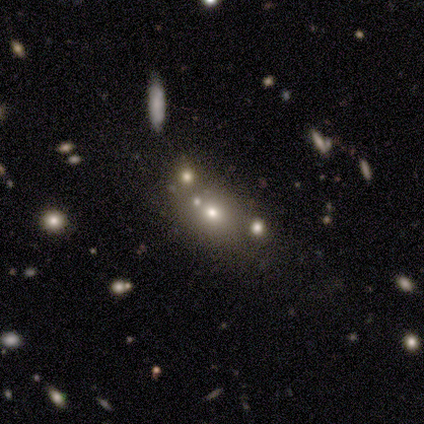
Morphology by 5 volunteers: Smooth or featured: smooth — 60% (featured or disk — 20%)
How rounded: round — 67% (in between — 33%)
Merging: none — 50% (minor disturbance — 25%)